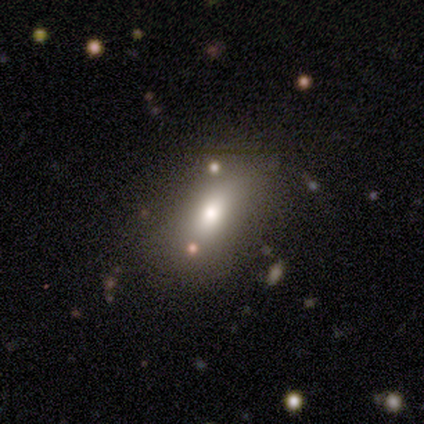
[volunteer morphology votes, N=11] Smooth or featured? smooth (55%)
How rounded? in between (83%)
Merging? none (80%)